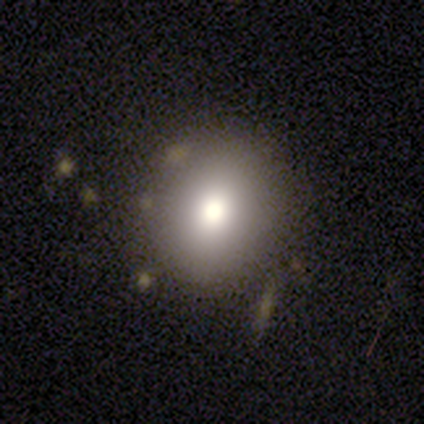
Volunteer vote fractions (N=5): Smooth or featured?
  - smooth: 80% *
  - star or artifact: 20%
  - featured or disk: 0%
How rounded?
  - round: 75% *
  - in between: 25%
  - cigar-shaped: 0%
Merging?
  - none: 75% *
  - minor disturbance: 25%
  - major disturbance: 0%
  - merger: 0%